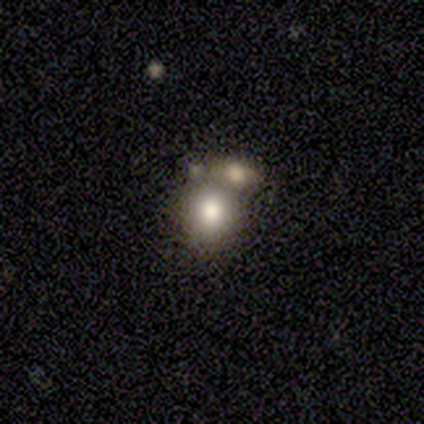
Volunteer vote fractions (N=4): A star or artifact, not a galaxy (50%).

Vote fractions:
- Smooth or featured? star or artifact: 50% / smooth: 25% / featured or disk: 25%